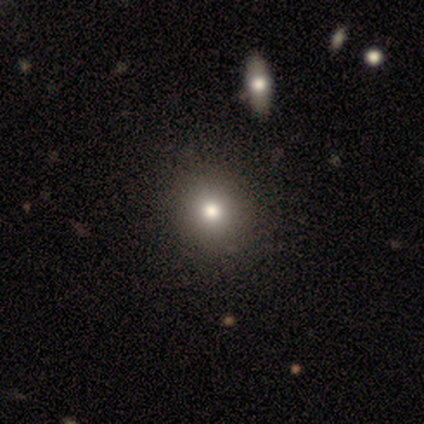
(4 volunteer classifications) Smooth or featured?
  - smooth: 100% *
  - featured or disk: 0%
  - star or artifact: 0%
How rounded?
  - round: 100% *
  - in between: 0%
  - cigar-shaped: 0%
Merging?
  - none: 75% *
  - minor disturbance: 25%
  - major disturbance: 0%
  - merger: 0%